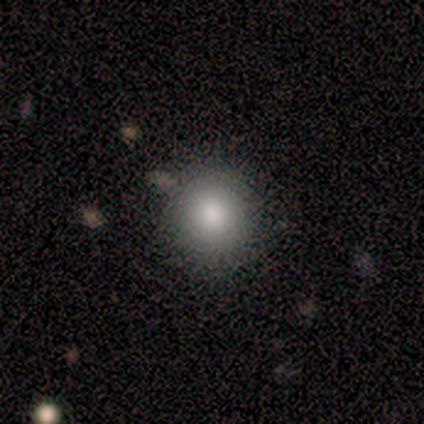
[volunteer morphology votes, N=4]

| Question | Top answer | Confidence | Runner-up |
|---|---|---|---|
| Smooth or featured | smooth | 75% | featured or disk (25%) |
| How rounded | round | 100% | — |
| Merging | none | 100% | — |